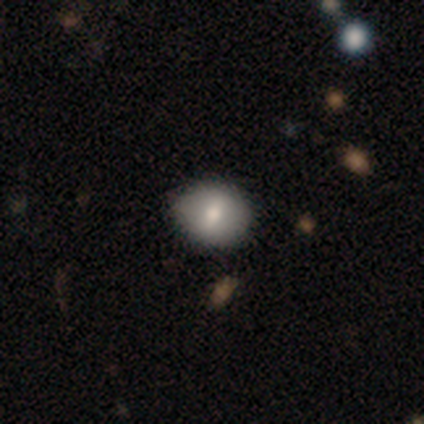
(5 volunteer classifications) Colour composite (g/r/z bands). It shows a smooth galaxy with no disk features (60%) that is round (100%). Merging: none (100%).